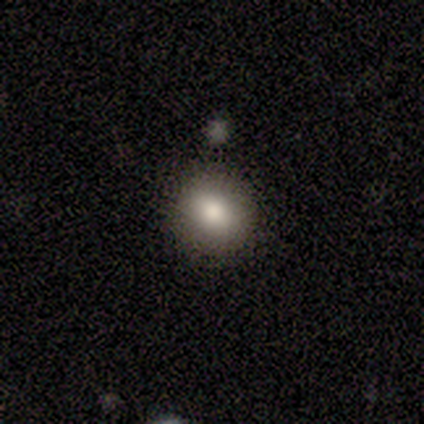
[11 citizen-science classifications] A smooth galaxy with no disk features (91%) that is round (80%). Merging: none (100%).